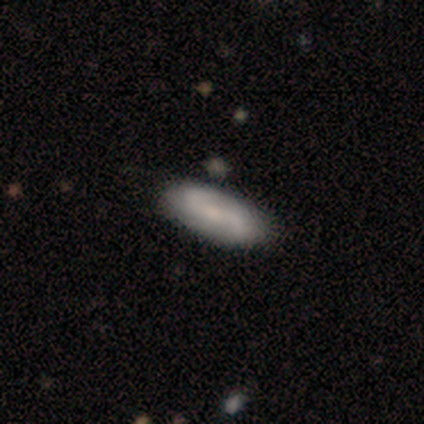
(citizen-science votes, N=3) Volunteers were most divided on "smooth or featured": smooth: 67%, featured or disk: 33%, star or artifact: 0%. More confident: how rounded — in between (100%); merging — none (67%).